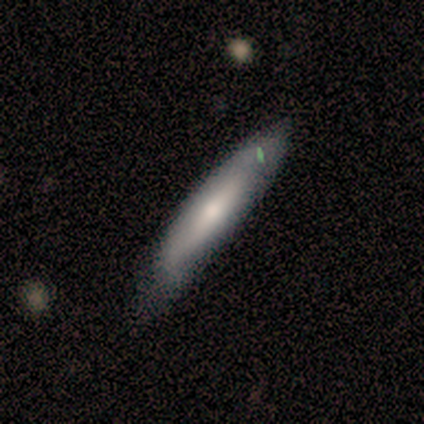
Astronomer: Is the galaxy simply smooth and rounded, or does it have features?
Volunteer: smooth — 83%.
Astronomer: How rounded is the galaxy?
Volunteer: cigar-shaped — 80%.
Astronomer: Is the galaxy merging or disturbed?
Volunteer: none — 67%.